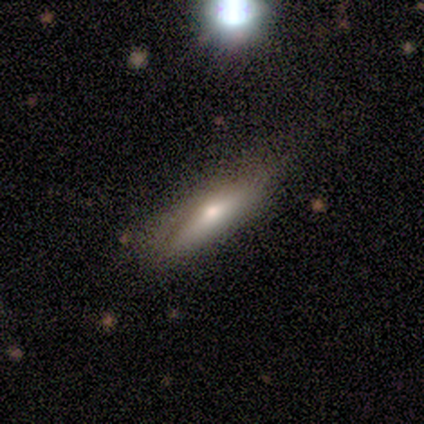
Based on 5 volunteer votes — Smooth or featured? 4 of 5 (80%) said smooth. How rounded? 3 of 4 (75%) said cigar-shaped. Merging? 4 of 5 (80%) said none.